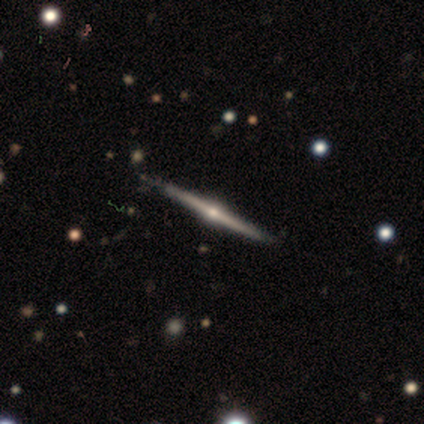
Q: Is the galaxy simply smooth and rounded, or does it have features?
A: featured or disk — 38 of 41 (93%).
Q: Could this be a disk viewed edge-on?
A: yes — 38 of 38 (100%).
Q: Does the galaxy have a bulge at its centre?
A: rounded — 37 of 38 (97%).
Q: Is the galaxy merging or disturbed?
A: none — 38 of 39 (97%).